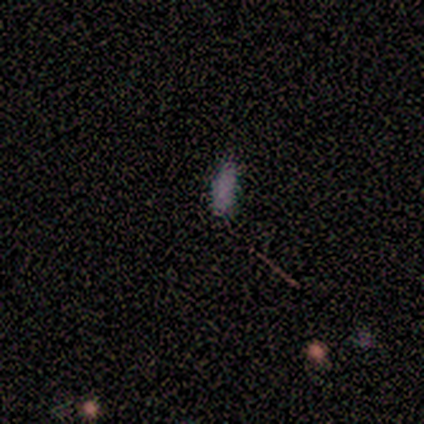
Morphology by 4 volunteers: smooth 75%, star or artifact 25%, featured or disk 0%. Down the decision tree: how rounded — in between (67%); merging — none (100%).